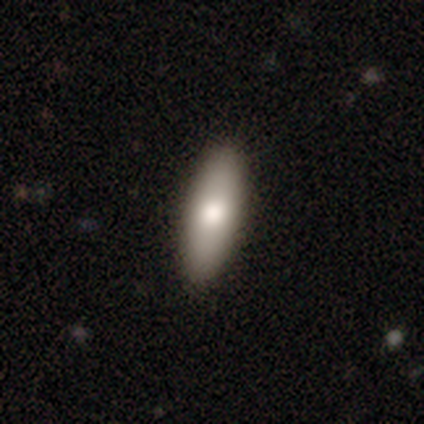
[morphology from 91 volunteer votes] Smooth or featured?
  - smooth: 74% *
  - featured or disk: 23%
  - star or artifact: 3%
How rounded?
  - in between: 51% *
  - cigar-shaped: 48%
  - round: 1%
Merging?
  - none: 91% *
  - minor disturbance: 8%
  - major disturbance: 1%
  - merger: 0%